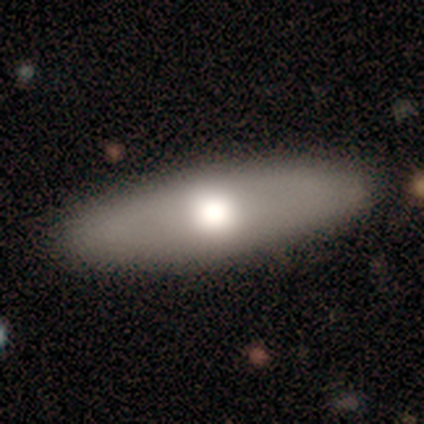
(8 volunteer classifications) This is possibly a smooth galaxy (50%, tied with featured or disk). How rounded: likely in between (75%). Merging: likely none (62%).